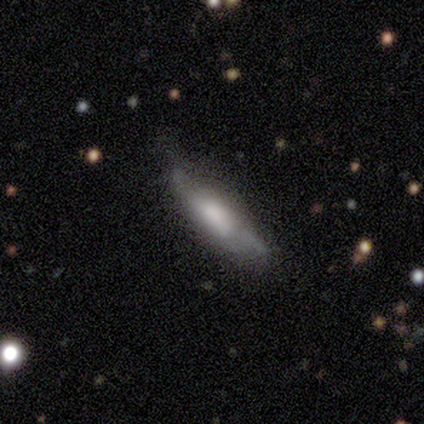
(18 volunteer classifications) Smooth or featured? 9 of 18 (50%, tied with featured or disk) said smooth. How rounded? 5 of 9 (56%) said cigar-shaped. Merging? 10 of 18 (56%) said none.